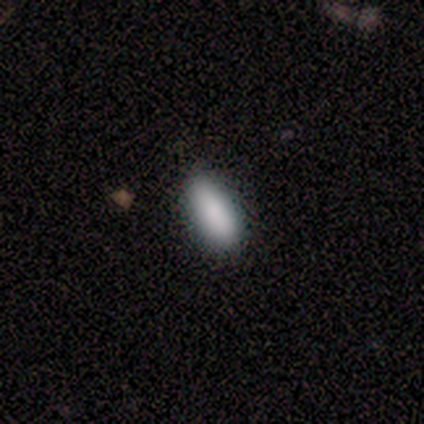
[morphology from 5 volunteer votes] Smooth or featured: smooth — 80% (star or artifact — 20%)
How rounded: in between — 75% (cigar-shaped — 25%)
Merging: none — 100%